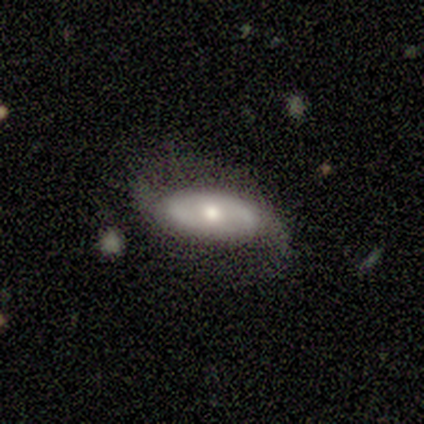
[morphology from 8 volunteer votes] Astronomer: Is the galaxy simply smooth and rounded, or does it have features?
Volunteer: featured or disk — 75%.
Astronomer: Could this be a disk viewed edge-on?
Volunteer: no — 100%.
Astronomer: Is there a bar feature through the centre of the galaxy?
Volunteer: no — 100%.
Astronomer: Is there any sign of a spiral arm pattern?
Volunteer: yes — 67%.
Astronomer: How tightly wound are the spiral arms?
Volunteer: tight — 50%.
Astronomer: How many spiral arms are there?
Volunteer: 2 — 75%.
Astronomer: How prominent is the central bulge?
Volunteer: moderate — 67%.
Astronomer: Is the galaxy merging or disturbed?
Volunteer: none — 50%.